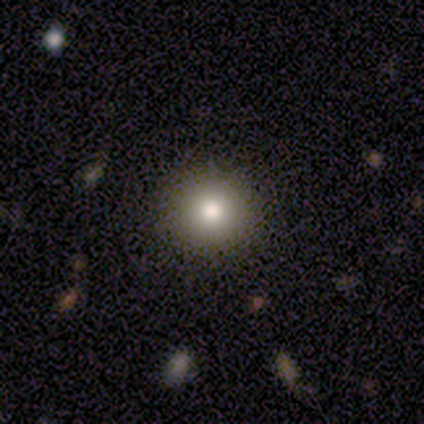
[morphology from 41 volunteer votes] This appears to be a smooth galaxy with no disk features (88%) that is round (92%). Merging: none (80%).